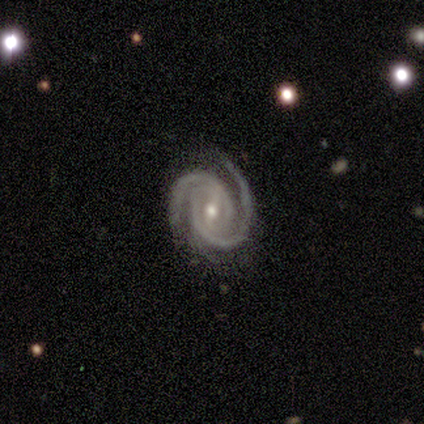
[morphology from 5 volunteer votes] Overall: featured or disk (100%). Edge-on disk: no (100%). Bar: weak (80%). Spiral arms: yes (100%). Spiral arm count: 2 (100%). Spiral winding: tight (100%). Bulge size: moderate (80%). Merging: none (80%).